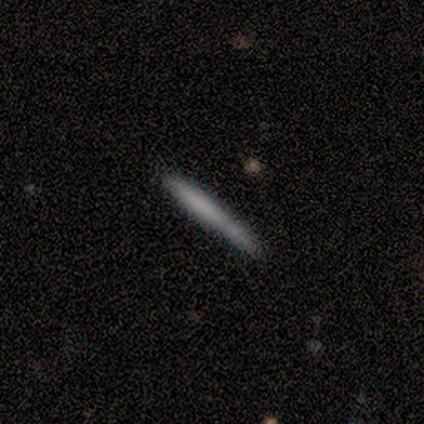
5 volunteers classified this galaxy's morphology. type=smooth (80%); roundness=cigar-shaped (100%); merging=none (40%, tied with minor disturbance).